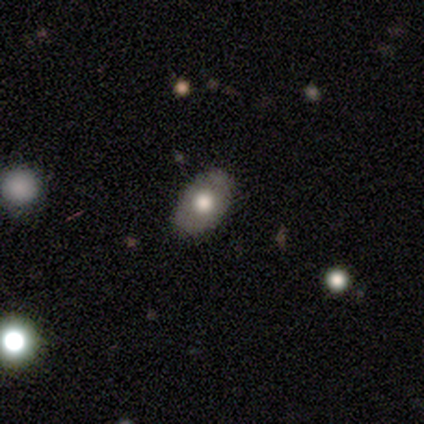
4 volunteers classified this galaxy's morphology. Consensus on every question: smooth or featured — smooth (100%); how rounded — in between (100%); merging — none (100%).